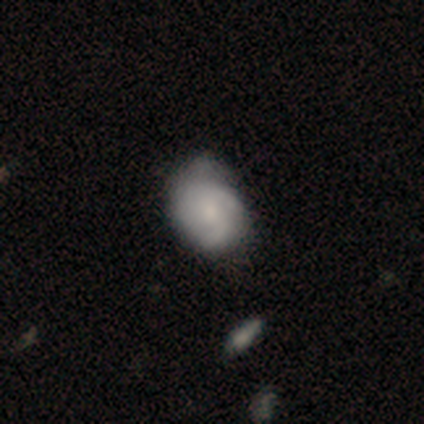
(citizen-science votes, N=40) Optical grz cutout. It shows a featured or disk galaxy (60%) with no bar (79%), 2 (40%, tied with can't tell) medium (50%) spiral arms (83%) and a moderate central bulge (42%). Merging: none (30%).